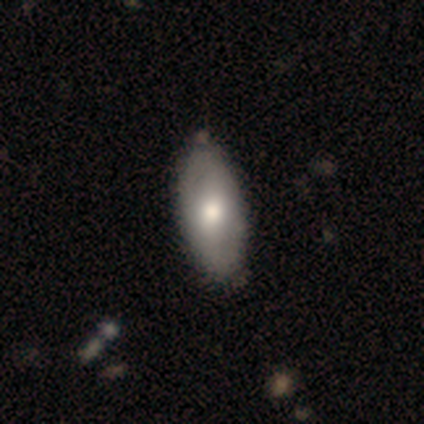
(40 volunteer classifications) Smooth or featured? smooth (70%)
How rounded? in between (82%)
Merging? none (55%)